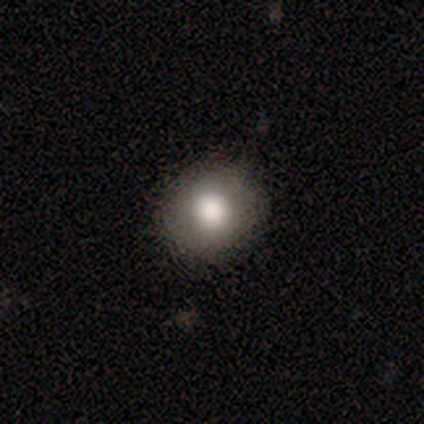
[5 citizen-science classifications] Smooth or featured?
  - smooth: 100% *
  - featured or disk: 0%
  - star or artifact: 0%
How rounded?
  - round: 60% *
  - in between: 40%
  - cigar-shaped: 0%
Merging?
  - none: 80% *
  - major disturbance: 20%
  - minor disturbance: 0%
  - merger: 0%